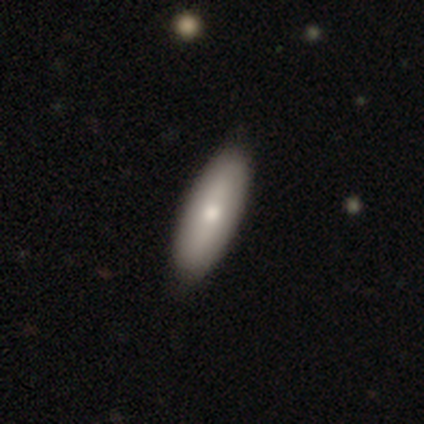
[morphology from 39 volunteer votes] Smooth or featured: smooth — 77% (featured or disk — 23%)
How rounded: in between — 67% (cigar-shaped — 33%)
Merging: none — 69% (minor disturbance — 5%)